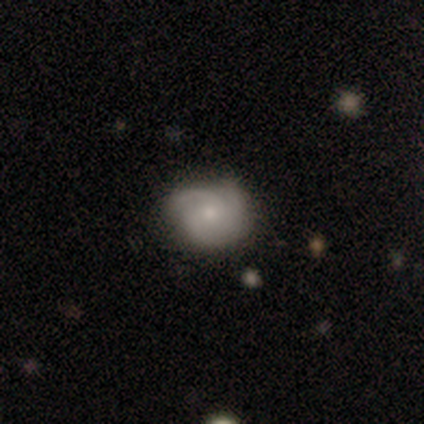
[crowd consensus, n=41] Morphology: type=featured or disk (56%); edge-on=no (96%); bar=no (100%); spiral arms=yes (100%); winding=tight (64%); arm count=3 (50%); bulge=small (64%); merging=none (71%).